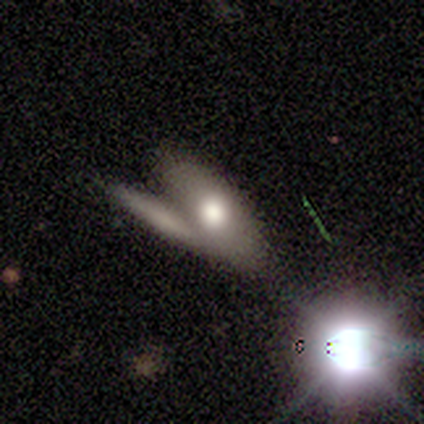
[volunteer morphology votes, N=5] Q: Smooth or featured?
A: smooth (40%); tied with: featured or disk (40%)
Q: How rounded?
A: in between (50%); tied with: cigar-shaped (50%)
Q: Merging?
A: none (50%); runner-up: major disturbance (25%)